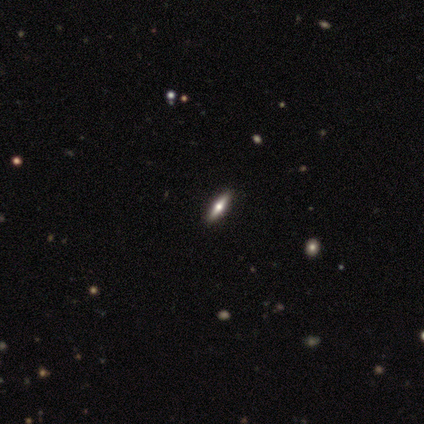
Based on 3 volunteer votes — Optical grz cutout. It shows a smooth galaxy with no disk features (67%) that is cigar-shaped (100%). Merging: none (100%).